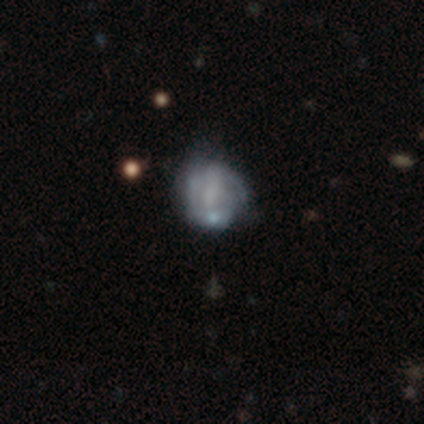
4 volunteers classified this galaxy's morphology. Smooth or featured: smooth — 75% (star or artifact — 25%)
How rounded: in between — 67% (round — 33%)
Merging: minor disturbance — 67% (none — 33%)